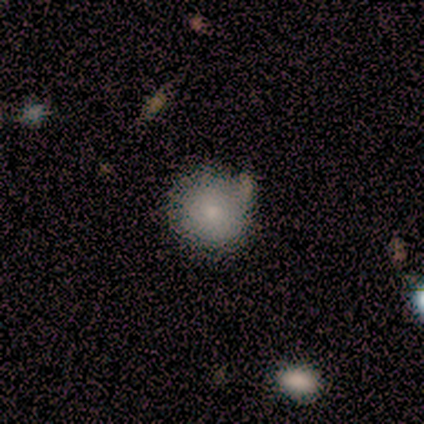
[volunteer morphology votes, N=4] Smooth or featured?
  - smooth: 100% *
  - featured or disk: 0%
  - star or artifact: 0%
How rounded?
  - round: 75% *
  - in between: 25%
  - cigar-shaped: 0%
Merging?
  - none: 75% *
  - minor disturbance: 25%
  - major disturbance: 0%
  - merger: 0%